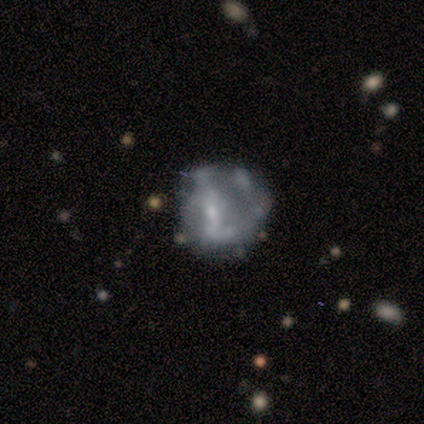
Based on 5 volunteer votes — Q: Smooth or featured?
A: smooth (60%); runner-up: featured or disk (40%)
Q: How rounded?
A: round (67%); runner-up: in between (33%)
Q: Merging?
A: minor disturbance (60%); runner-up: none (20%)